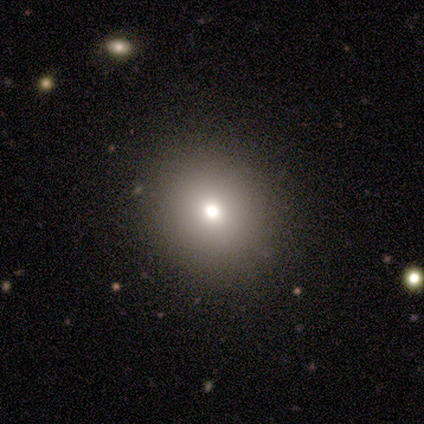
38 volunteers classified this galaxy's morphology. type=smooth (74%); roundness=round (89%); merging=none (100%).